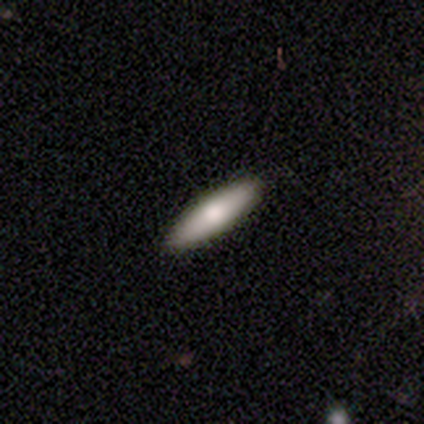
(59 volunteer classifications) A smooth galaxy with no disk features (71%) that is cigar-shaped (55%).

Vote fractions:
- Smooth or featured? smooth: 71% / featured or disk: 25% / star or artifact: 3%
- How rounded? cigar-shaped: 55% / in between: 45% / round: 0%
- Merging? none: 95% / minor disturbance: 4% / major disturbance: 2% / merger: 0%